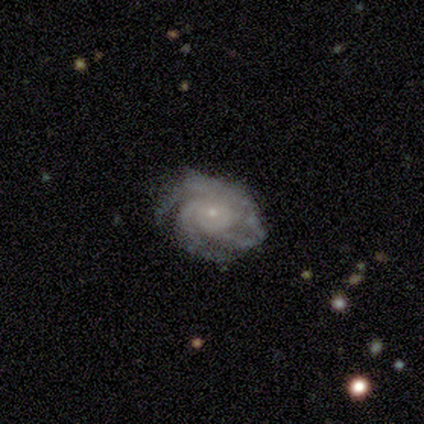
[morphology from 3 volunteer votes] Smooth or featured? 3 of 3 (100%) said featured or disk. Edge-on disk? 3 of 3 (100%) said no. Bar? 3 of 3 (100%) said no. Spiral arms? 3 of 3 (100%) said yes. Spiral winding? 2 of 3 (67%) said tight. Spiral arm count? 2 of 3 (67%) said 3. Bulge size? 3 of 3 (100%) said small. Merging? 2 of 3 (67%) said none.